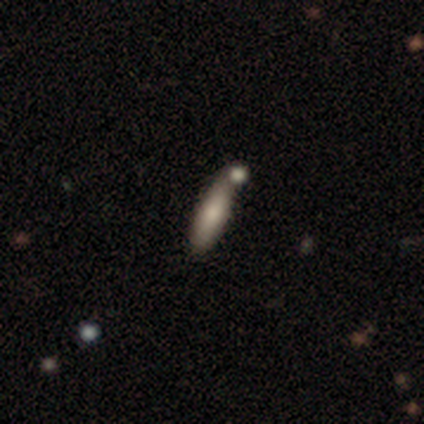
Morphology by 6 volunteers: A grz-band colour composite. It shows a smooth galaxy with no disk features (67%) that is cigar-shaped (75%). Merging: none (100%).